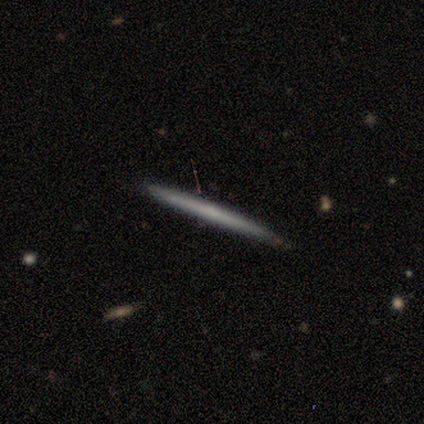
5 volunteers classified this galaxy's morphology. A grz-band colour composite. It shows a featured or disk galaxy (60%) viewed edge-on (100%) with no central bulge (100%). Merging: none (60%).